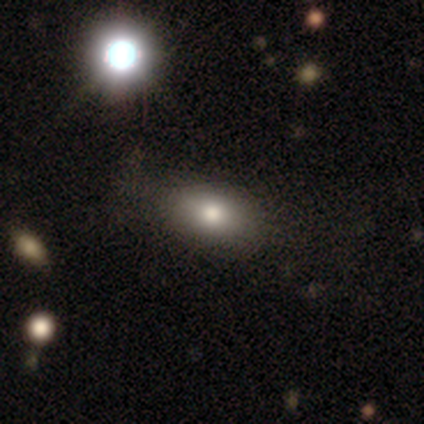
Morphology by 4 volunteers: Smooth or featured? smooth (100%)
How rounded? in between (100%)
Merging? none (75%)